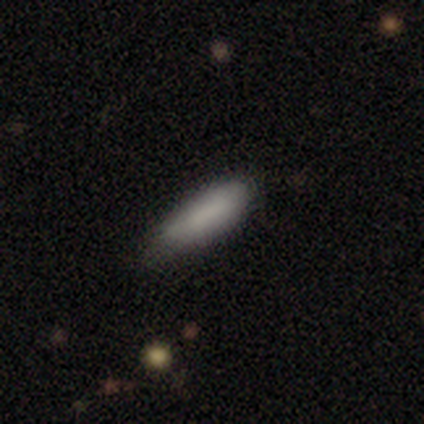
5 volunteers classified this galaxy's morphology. Smooth or featured?
  - smooth: 80% *
  - featured or disk: 20%
  - star or artifact: 0%
How rounded?
  - in between: 50% * (tied)
  - cigar-shaped: 50% * (tied)
  - round: 0%
Merging?
  - none: 80% *
  - major disturbance: 20%
  - minor disturbance: 0%
  - merger: 0%